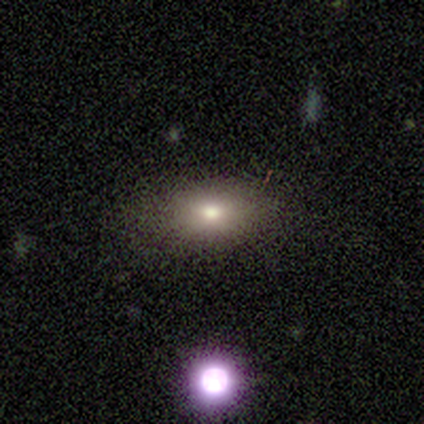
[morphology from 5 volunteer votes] A smooth galaxy with no disk features (40%, tied with featured or disk) that is in between round and cigar-shaped (100%). Merging: none (50%, tied with minor disturbance).